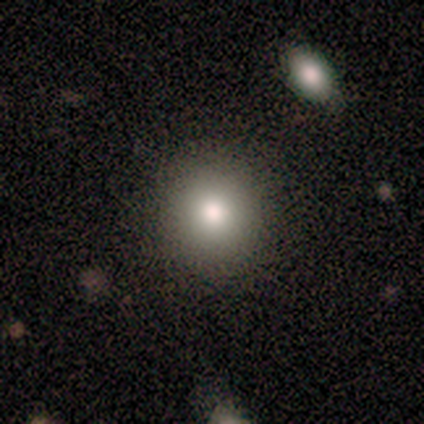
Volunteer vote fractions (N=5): Q: Smooth or featured?
A: smooth (60%); runner-up: star or artifact (40%)
Q: How rounded?
A: round (100%)
Q: Merging?
A: none (100%)